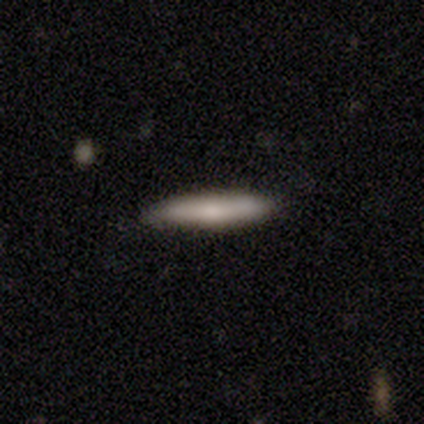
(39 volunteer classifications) A smooth galaxy with no disk features (69%) that is cigar-shaped (93%). Merging: none (77%).